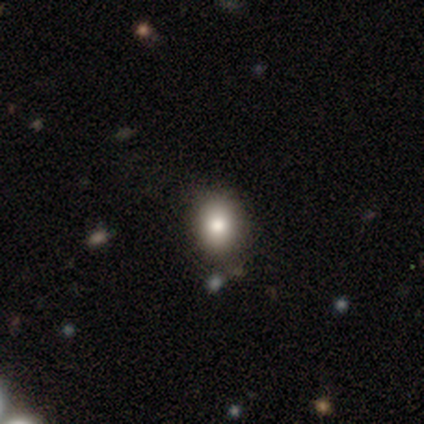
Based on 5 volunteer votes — Smooth or featured?
  - smooth: 100% *
  - featured or disk: 0%
  - star or artifact: 0%
How rounded?
  - in between: 80% *
  - round: 20%
  - cigar-shaped: 0%
Merging?
  - none: 60% *
  - minor disturbance: 40%
  - major disturbance: 0%
  - merger: 0%